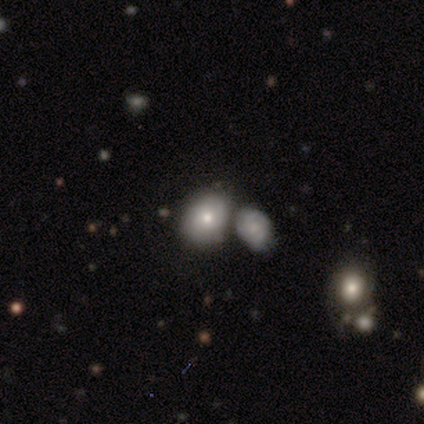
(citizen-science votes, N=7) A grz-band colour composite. It shows a smooth galaxy with no disk features (71%) that is in between round and cigar-shaped (60%). Merging: none (43%, tied with merger).